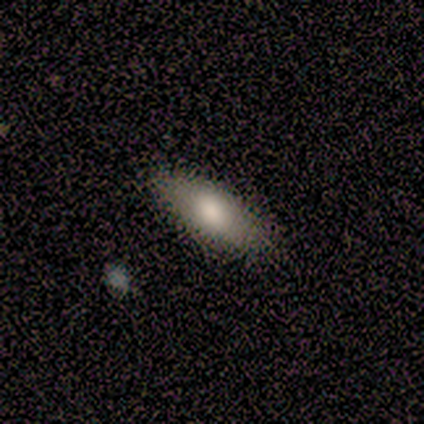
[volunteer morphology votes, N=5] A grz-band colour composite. It shows a smooth galaxy with no disk features (100%) that is in between round and cigar-shaped (100%). Merging: none (100%).